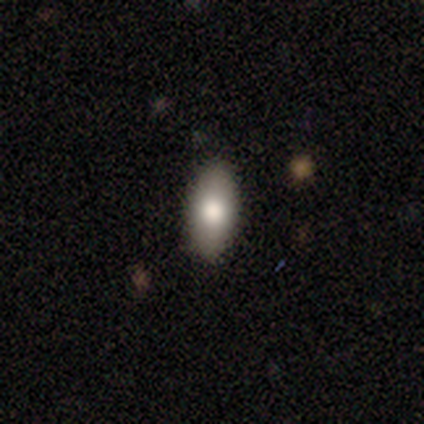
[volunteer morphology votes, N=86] A smooth galaxy with no disk features (74%) that is in between round and cigar-shaped (86%).

Vote fractions:
- Smooth or featured? smooth: 74% / featured or disk: 14% / star or artifact: 12%
- How rounded? in between: 86% / cigar-shaped: 12% / round: 2%
- Merging? none: 89% / minor disturbance: 8% / major disturbance: 3% / merger: 0%